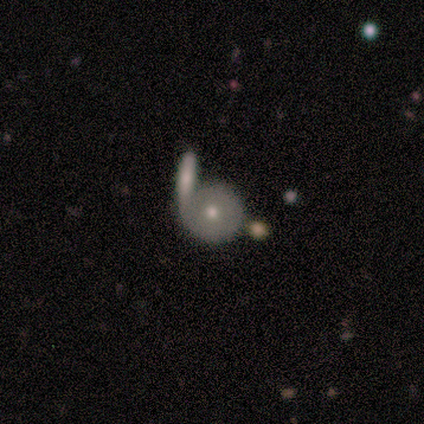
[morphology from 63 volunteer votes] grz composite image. It shows a featured or disk galaxy (49%) with no bar (96%), no spiral arms (86%) and a moderate central bulge (50%, tied with small). Merging: none (52%).